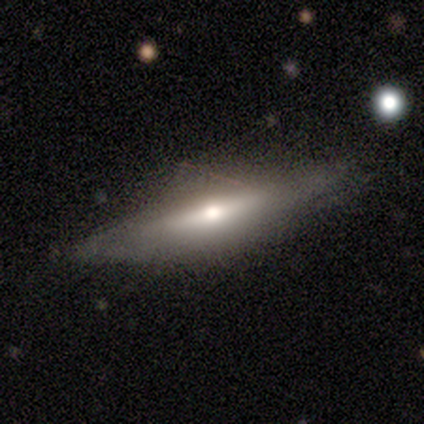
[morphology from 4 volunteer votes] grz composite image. It shows a featured or disk galaxy (75%) viewed edge-on (67%) with a rounded central bulge (100%). Merging: none (50%).